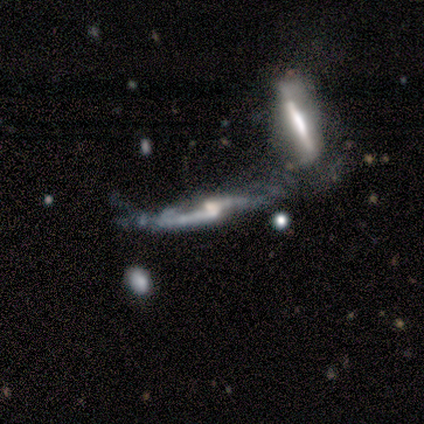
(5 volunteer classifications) A featured or disk galaxy (100%) viewed edge-on (80%) with no central bulge (50%, tied with rounded).

Vote fractions:
- Smooth or featured? featured or disk: 100% / smooth: 0% / star or artifact: 0%
- Edge-on disk? yes: 80% / no: 20%
- Edge-on bulge? none: 50% (tied) / rounded: 50% (tied) / boxy: 0%
- Merging? major disturbance: 40% (tied) / merger: 40% (tied) / none: 20% / minor disturbance: 0%